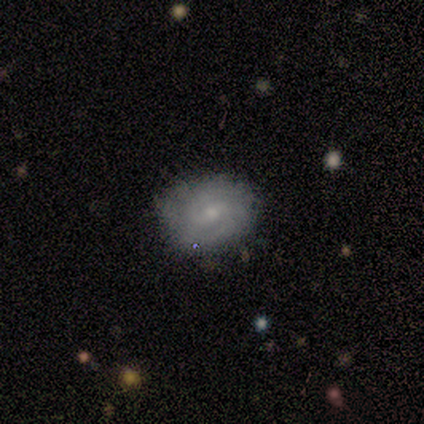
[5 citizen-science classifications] Overall: featured or disk (100%). Edge-on disk: no (80%). Bar: weak (50%; strong 25%). Spiral arms: yes (75%). Spiral arm count: 2 (100%). Spiral winding: tight (67%; loose 33%). Bulge size: moderate (50%; small 25%). Merging: none (80%).